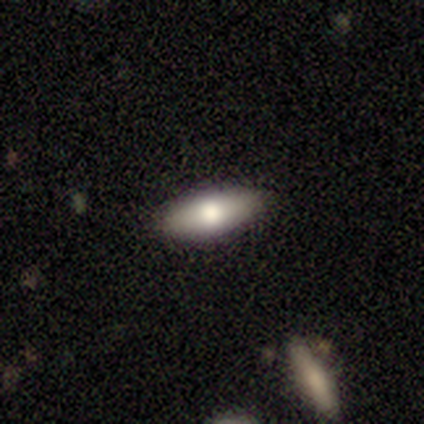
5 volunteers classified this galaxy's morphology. Smooth or featured?
  - smooth: 80% *
  - featured or disk: 20%
  - star or artifact: 0%
How rounded?
  - in between: 75% *
  - cigar-shaped: 25%
  - round: 0%
Merging?
  - none: 100% *
  - minor disturbance: 0%
  - major disturbance: 0%
  - merger: 0%